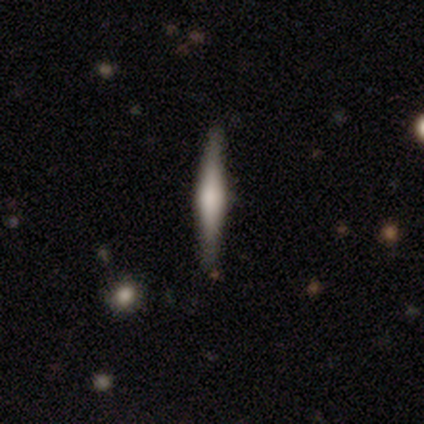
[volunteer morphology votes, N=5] Q: Smooth or featured?
A: featured or disk (80%); runner-up: smooth (20%)
Q: Edge-on disk?
A: yes (75%); runner-up: no (25%)
Q: Edge-on bulge?
A: rounded (100%)
Q: Merging?
A: none (80%); runner-up: minor disturbance (20%)